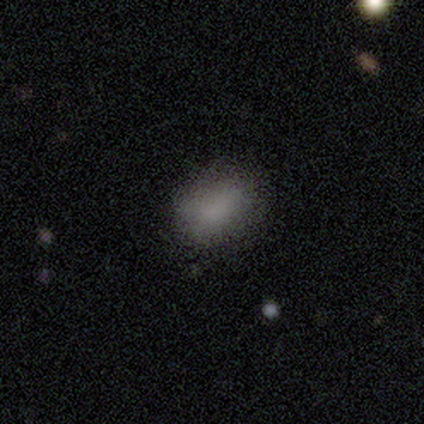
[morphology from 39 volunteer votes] type=smooth (87%); roundness=in between (82%); merging=none (46%).